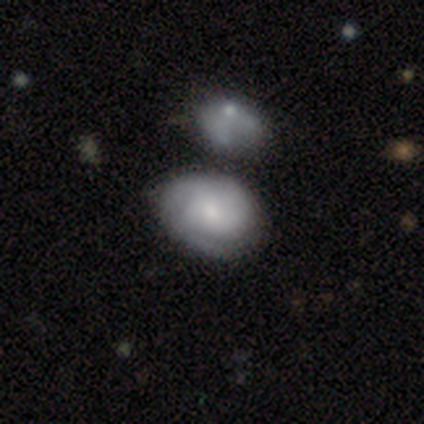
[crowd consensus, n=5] Smooth or featured? 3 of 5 (60%) said featured or disk. Edge-on disk? 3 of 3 (100%) said no. Bar? 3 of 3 (100%) said no. Spiral arms? 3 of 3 (100%) said yes. Spiral winding? 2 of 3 (67%) said medium. Spiral arm count? 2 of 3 (67%) said 2. Bulge size? 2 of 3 (67%) said moderate. Merging? 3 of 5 (60%) said merger.